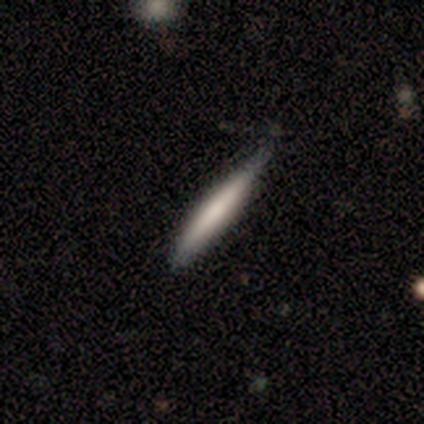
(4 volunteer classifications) This appears to be a smooth galaxy with no disk features (75%) that is cigar-shaped (100%). Merging: none (75%).